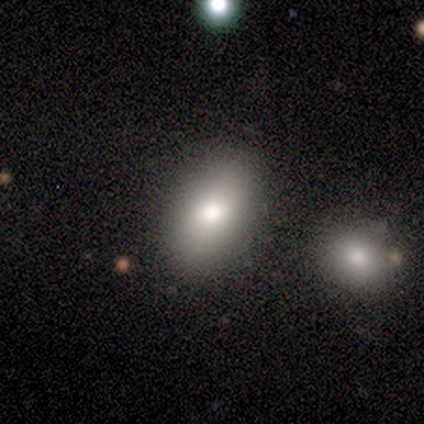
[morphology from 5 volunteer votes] Q: Smooth or featured?
A: smooth (60%); runner-up: featured or disk (40%)
Q: How rounded?
A: in between (67%); runner-up: round (33%)
Q: Merging?
A: none (60%); runner-up: merger (40%)